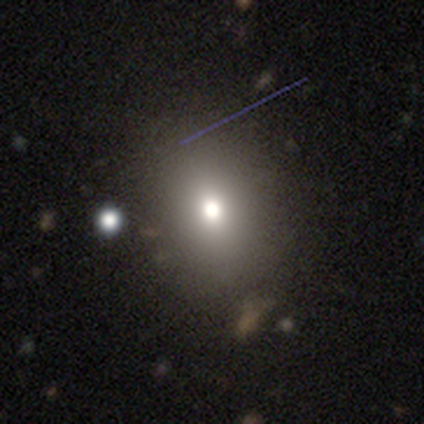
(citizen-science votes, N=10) This appears to be a smooth galaxy with no disk features (70%) that is in between round and cigar-shaped (71%). Merging: none (67%).